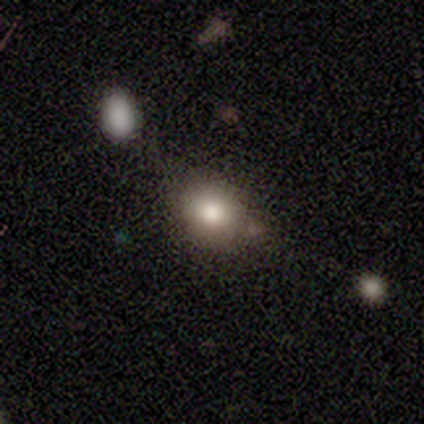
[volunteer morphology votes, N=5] Smooth or featured: smooth — 100%
How rounded: round — 60% (in between — 40%)
Merging: none — 40% (tied with minor disturbance — 40%)